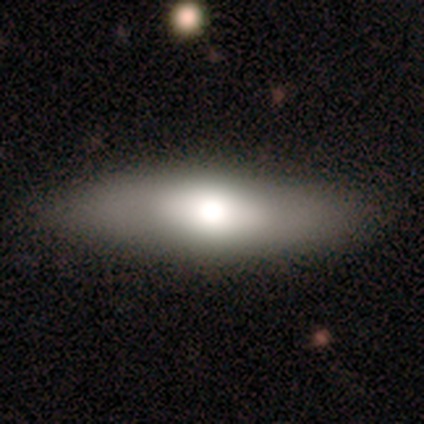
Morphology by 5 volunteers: A smooth galaxy with no disk features (60%) that is in between round and cigar-shaped (67%). Merging: none (80%).